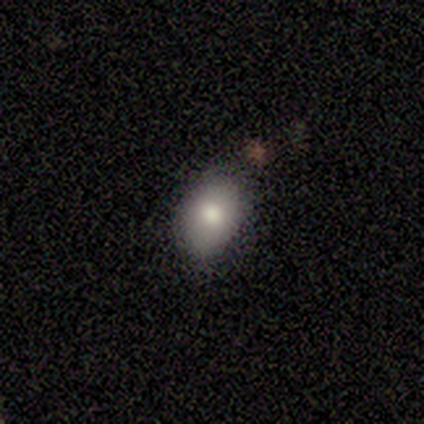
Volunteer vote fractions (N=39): A smooth galaxy with no disk features (77%) that is in between round and cigar-shaped (90%). Merging: none (79%).